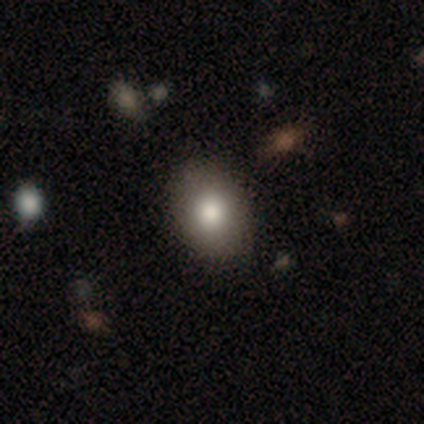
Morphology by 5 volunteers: Smooth or featured?
  - smooth: 100% *
  - featured or disk: 0%
  - star or artifact: 0%
How rounded?
  - in between: 80% *
  - round: 20%
  - cigar-shaped: 0%
Merging?
  - none: 80% *
  - minor disturbance: 20%
  - major disturbance: 0%
  - merger: 0%